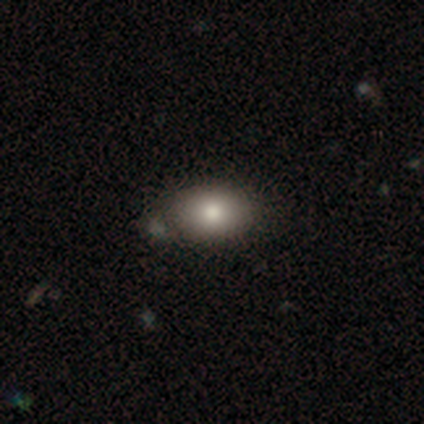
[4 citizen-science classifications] smooth_or_featured: smooth (p=0.75) [alt: star or artifact p=0.25]
how_rounded: in between (p=1.00)
merging: none (p=0.67) [alt: minor disturbance p=0.33]